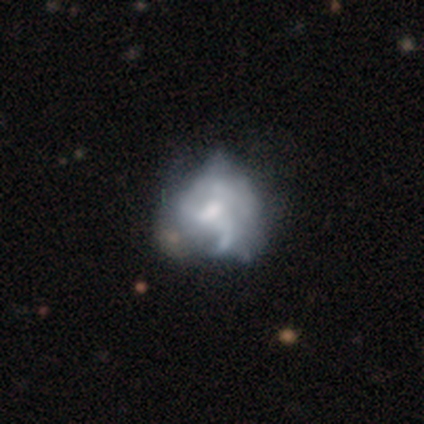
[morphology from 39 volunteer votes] Smooth or featured? featured or disk (74%)
Edge-on disk? no (100%)
Bar? no (55%)
Spiral arms? yes (66%)
Spiral winding? loose (53%)
Spiral arm count? 3 (32%, tied with can't tell)
Bulge size? small (41%)
Merging? minor disturbance (25%)